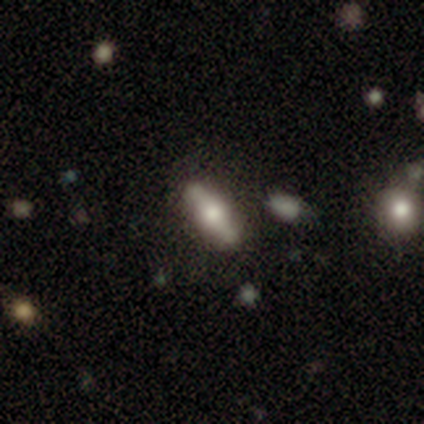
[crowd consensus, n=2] Smooth or featured? 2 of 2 (100%) said smooth. How rounded? 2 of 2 (100%) said in between. Merging? 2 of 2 (100%) said none.